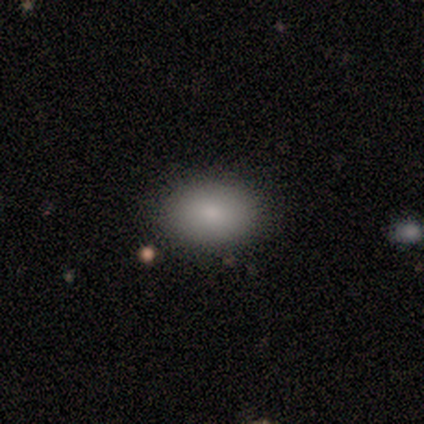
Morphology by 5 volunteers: A smooth galaxy with no disk features (100%) that is in between round and cigar-shaped (80%). Merging: none (80%).